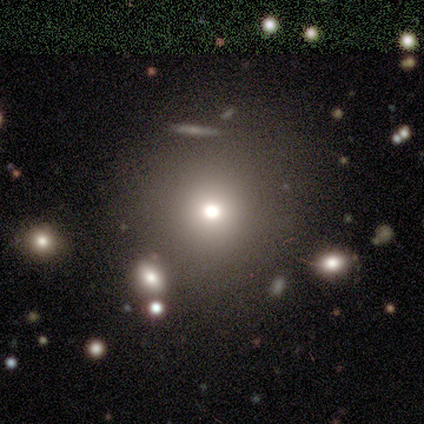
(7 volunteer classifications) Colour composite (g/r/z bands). It shows a smooth galaxy with no disk features (71%) that is round (100%). Merging: none (67%).